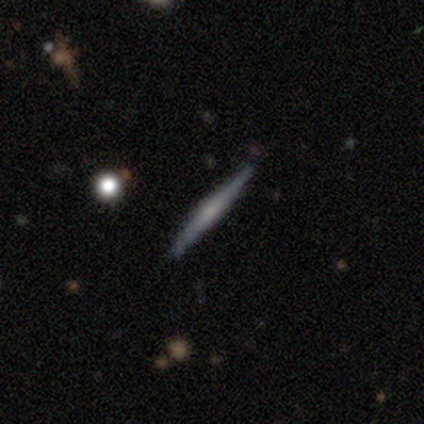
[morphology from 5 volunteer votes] This is likely a featured or disk galaxy (60%). It is clearly viewed edge-on (100%). Edge-on bulge: likely none (67%). Merging: clearly none (100%).